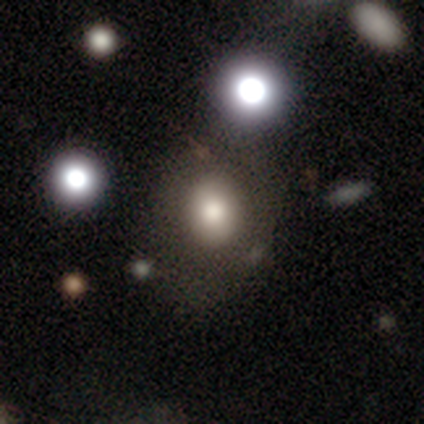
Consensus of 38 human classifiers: A smooth galaxy with no disk features (66%) that is round (56%).

Vote fractions:
- Smooth or featured? smooth: 66% / featured or disk: 24% / star or artifact: 11%
- How rounded? round: 56% / in between: 44% / cigar-shaped: 0%
- Merging? none: 65% / major disturbance: 9% / minor disturbance: 6% / merger: 6%